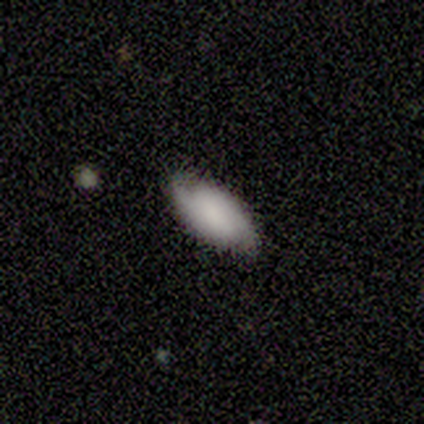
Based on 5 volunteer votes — smooth 60%, featured or disk 40%, star or artifact 0%. Down the decision tree: how rounded — in between (100%); merging — none (60%).